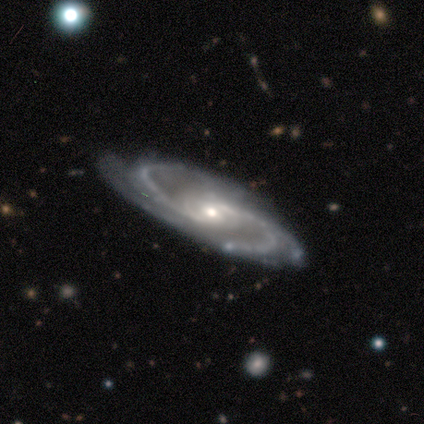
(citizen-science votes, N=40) smooth-or-featured: featured or disk: 90% | smooth: 8% | star or artifact: 2%
  disk-edge-on: no: 89% | yes: 11%
    bar: no: 59% | weak: 22% | strong: 19%
    has-spiral-arms: yes: 97% | no: 3%
      spiral-winding: medium: 52% | tight: 35% | loose: 13%
      spiral-arm-count: 2: 48% | 4: 26% | 3: 16% | more than 4: 10% | 1: 0% | can't tell: 0%
    bulge-size: small: 53% | moderate: 41% | large: 3% | none: 3% | dominant: 0%
  merging: none: 67% | minor disturbance: 21% | major disturbance: 10% | merger: 3%